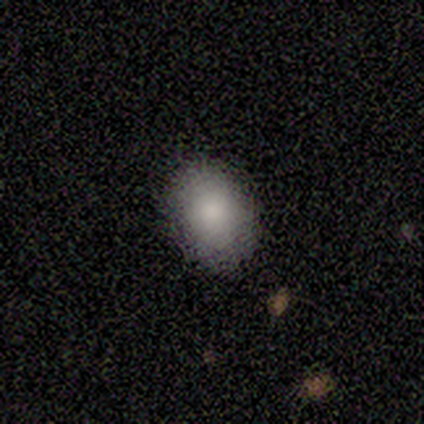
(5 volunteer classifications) smooth_or_featured: smooth (p=0.80) [alt: star or artifact p=0.20]
how_rounded: in between (p=0.75) [alt: round p=0.25]
merging: none (p=0.75) [alt: minor disturbance p=0.25]